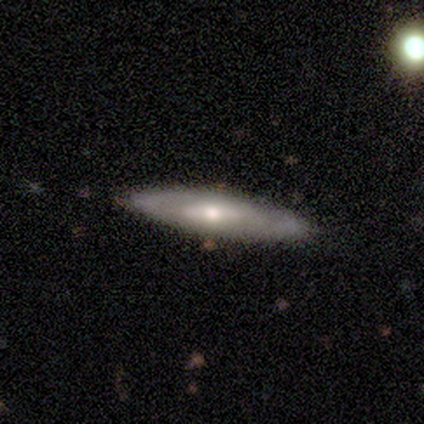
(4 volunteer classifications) smooth_or_featured: featured or disk (p=0.75) [alt: smooth p=0.25]
disk_edge_on: no (p=0.67) [alt: yes p=0.33]
bar: no (p=1.00)
has_spiral_arms: no (p=1.00)
bulge_size: moderate (p=0.50) [tied with: small p=0.50]
merging: none (p=0.75) [alt: minor disturbance p=0.25]